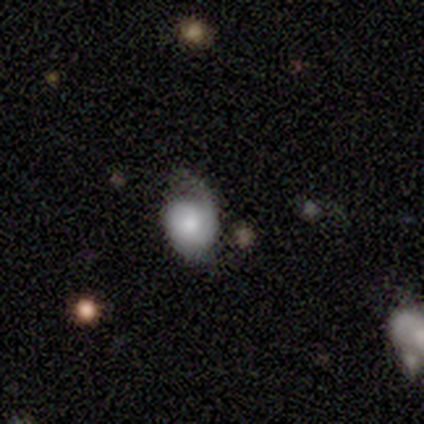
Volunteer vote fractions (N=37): smooth-or-featured: featured or disk: 51% | smooth: 43% | star or artifact: 5%
  disk-edge-on: no: 100% | yes: 0%
    bar: no: 79% | weak: 16% | strong: 5%
    has-spiral-arms: yes: 68% | no: 32%
      spiral-winding: tight: 77% | medium: 15% | loose: 8%
      spiral-arm-count: 2: 46% | 1: 31% | can't tell: 23% | 3: 0% | 4: 0% | more than 4: 0%
    bulge-size: moderate: 47% | large: 26% | dominant: 16% | small: 5% | none: 5%
  merging: minor disturbance: 43% | none: 34% | major disturbance: 20% | merger: 3%